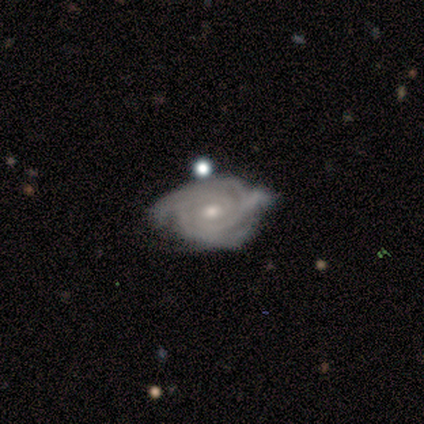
featured or disk 100%, smooth 0%, star or artifact 0%. Down the decision tree: edge-on disk — no (100%); bar — weak (50%, tied with no); spiral arms — yes (75%); spiral arm count — 2 (33%, tied with more than 4 and can't tell); spiral winding — tight (67%); bulge size — small (75%); merging — none (25%, tied with minor disturbance, major disturbance and merger).